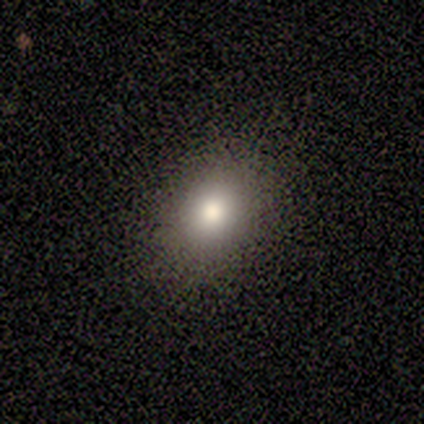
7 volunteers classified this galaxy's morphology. A smooth galaxy with no disk features (86%) that is in between round and cigar-shaped (83%). Merging: none (83%).